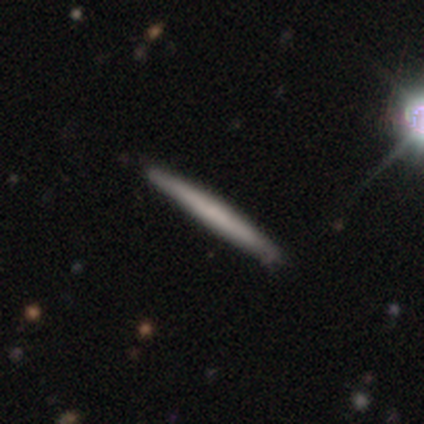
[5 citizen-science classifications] This appears to be a smooth galaxy with no disk features (60%) that is cigar-shaped (100%). Merging: none (100%).